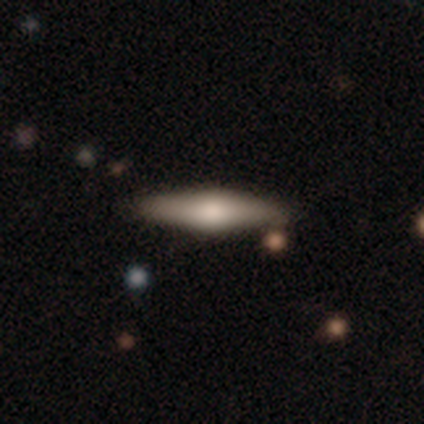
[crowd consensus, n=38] Smooth or featured? featured or disk (55%)
Edge-on disk? yes (100%)
Edge-on bulge? rounded (95%)
Merging? none (81%)